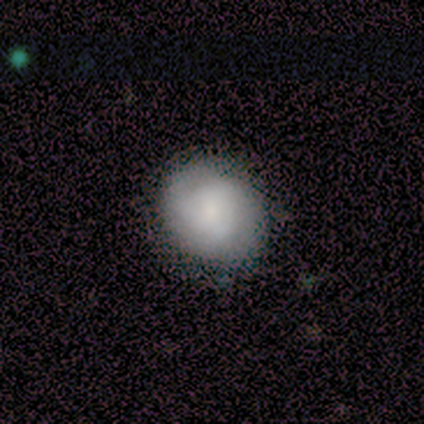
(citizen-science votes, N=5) This is likely a featured or disk galaxy (60%). It is clearly not viewed edge-on (100%). Bar: likely no (67%). Spiral arm pattern: clearly yes (100%). Spiral arm count: likely can't tell (67%). Spiral winding: likely tight (67%). Central bulge: likely small (67%). Merging: clearly none (100%).